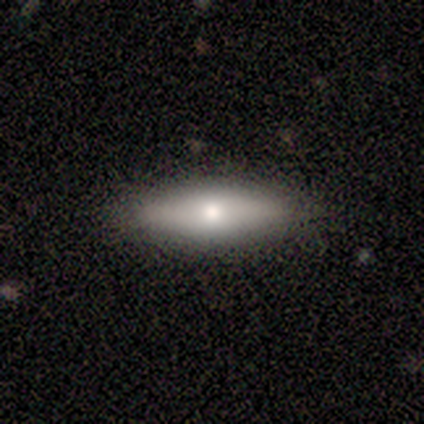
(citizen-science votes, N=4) This is likely a smooth galaxy (75%). How rounded: likely cigar-shaped (67%). Merging: likely none (75%).